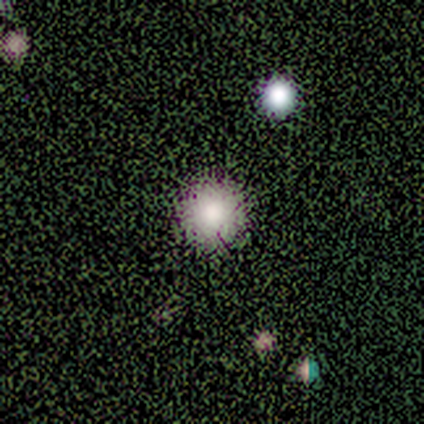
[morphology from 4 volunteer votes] smooth-or-featured: star or artifact: 75% | smooth: 25% | featured or disk: 0%